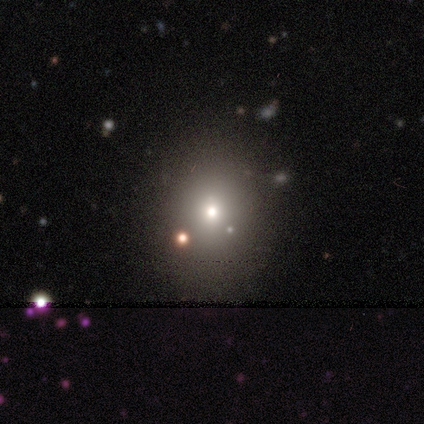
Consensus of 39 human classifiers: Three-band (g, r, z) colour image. It shows a smooth galaxy with no disk features (77%) that is round (60%). Merging: none (84%).